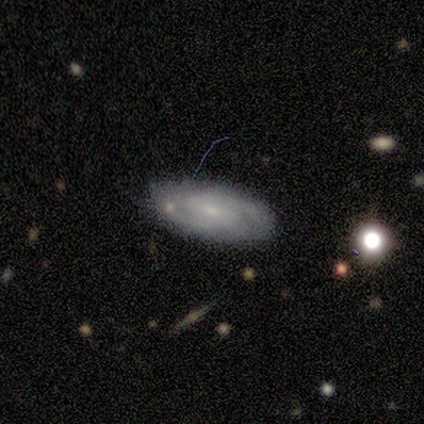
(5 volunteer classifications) Smooth or featured? featured or disk (60%)
Edge-on disk? no (100%)
Bar? weak (100%)
Spiral arms? yes (67%)
Spiral winding? tight (50%, tied with medium)
Spiral arm count? 2 (50%, tied with 3)
Bulge size? moderate (33%, tied with small and none)
Merging? none (100%)